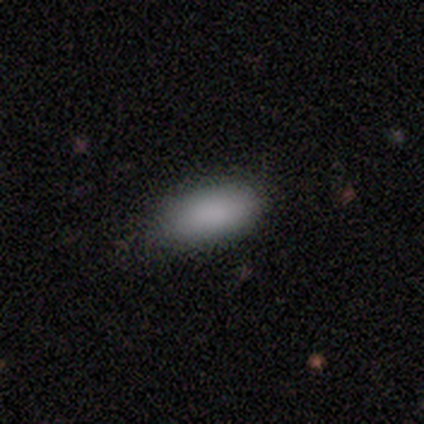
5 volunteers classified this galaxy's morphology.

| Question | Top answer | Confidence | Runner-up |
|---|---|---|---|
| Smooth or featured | smooth | 100% | — |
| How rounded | in between | 100% | — |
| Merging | none | 80% | minor disturbance (20%) |